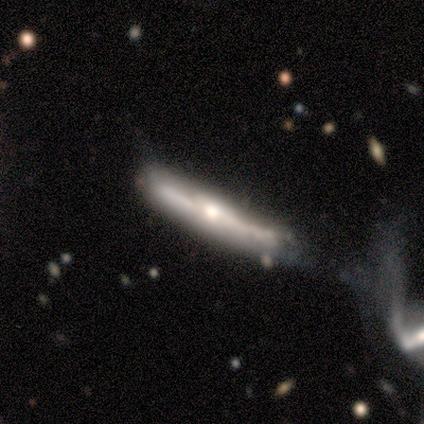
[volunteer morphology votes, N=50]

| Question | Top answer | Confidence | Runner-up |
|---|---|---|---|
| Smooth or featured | featured or disk | 78% | smooth (14%) |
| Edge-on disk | yes | 97% | no (3%) |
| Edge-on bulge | rounded | 71% | boxy (21%) |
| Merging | minor disturbance | 35% | none (30%) |